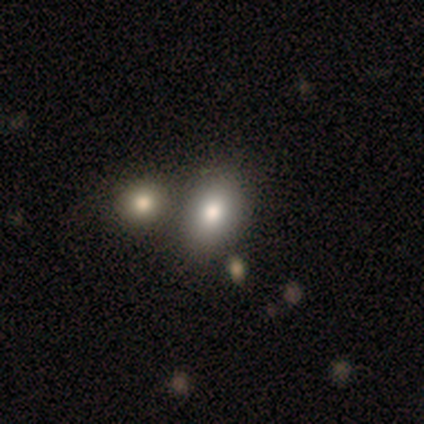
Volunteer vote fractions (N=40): Smooth or featured?
  - smooth: 85% *
  - featured or disk: 10%
  - star or artifact: 5%
How rounded?
  - in between: 88% *
  - round: 12%
  - cigar-shaped: 0%
Merging?
  - none: 47% *
  - merger: 26%
  - minor disturbance: 11%
  - major disturbance: 3%